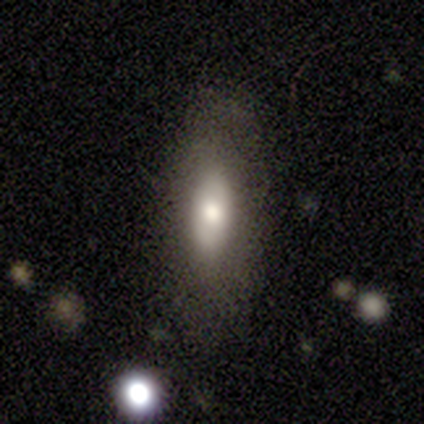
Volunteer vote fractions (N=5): A smooth galaxy with no disk features (60%) that is cigar-shaped (67%).

Vote fractions:
- Smooth or featured? smooth: 60% / featured or disk: 20% / star or artifact: 20%
- How rounded? cigar-shaped: 67% / in between: 33% / round: 0%
- Merging? none: 100% / minor disturbance: 0% / major disturbance: 0% / merger: 0%